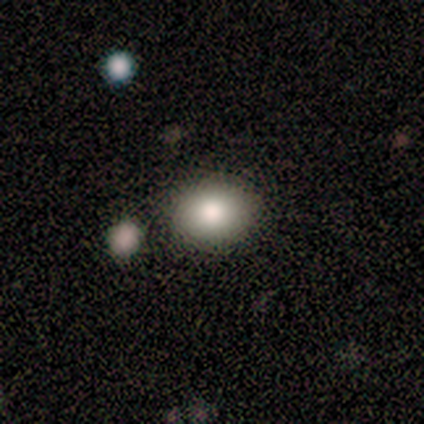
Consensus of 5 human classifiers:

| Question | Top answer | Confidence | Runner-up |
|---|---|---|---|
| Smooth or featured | smooth | 60% | featured or disk (20%) |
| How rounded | round | 67% | in between (33%) |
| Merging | none | 50% | tied: minor disturbance (50%) |